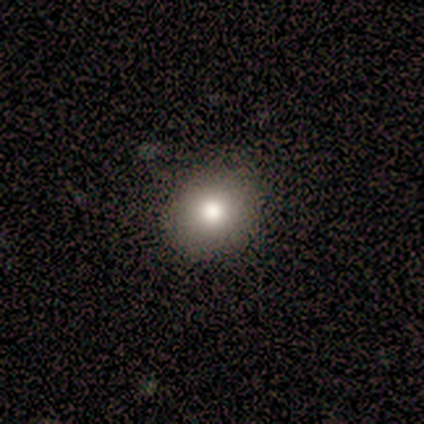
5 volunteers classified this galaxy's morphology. Smooth or featured?
  - smooth: 80% *
  - star or artifact: 20%
  - featured or disk: 0%
How rounded?
  - round: 100% *
  - in between: 0%
  - cigar-shaped: 0%
Merging?
  - none: 100% *
  - minor disturbance: 0%
  - major disturbance: 0%
  - merger: 0%